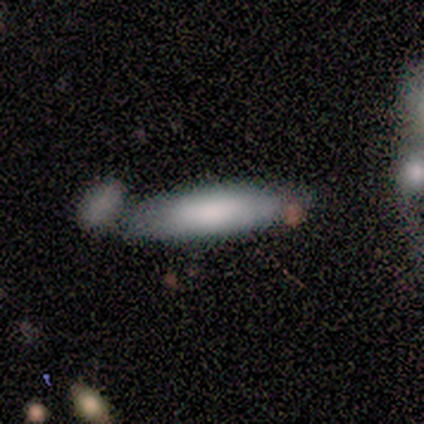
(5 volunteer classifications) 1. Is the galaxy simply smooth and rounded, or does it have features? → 100% smooth, 0% featured or disk, 0% star or artifact.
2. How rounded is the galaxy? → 60% cigar-shaped, 40% in between, 0% round.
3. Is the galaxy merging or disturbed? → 40% none (tied), 40% minor disturbance (tied), 20% merger, 0% major disturbance.